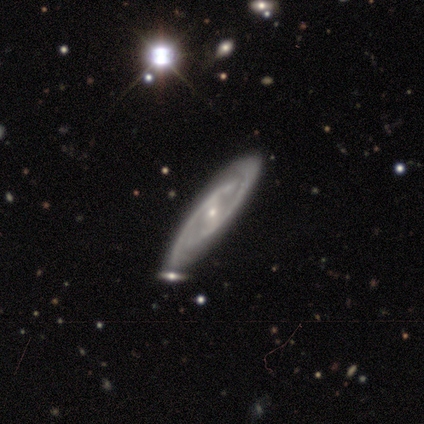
Q: Smooth or featured?
A: featured or disk (95%); runner-up: smooth (5%)
Q: Edge-on disk?
A: no (81%); runner-up: yes (19%)
Q: Bar?
A: weak (43%); runner-up: strong (37%)
Q: Spiral arms?
A: yes (97%); runner-up: no (3%)
Q: Spiral winding?
A: tight (59%); runner-up: medium (34%)
Q: Spiral arm count?
A: 2 (66%); runner-up: can't tell (21%)
Q: Bulge size?
A: small (70%); runner-up: moderate (27%)
Q: Merging?
A: none (82%); runner-up: minor disturbance (10%)